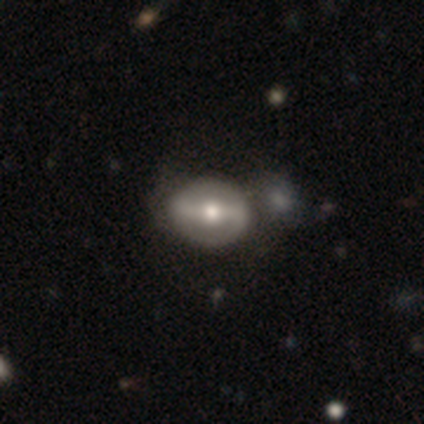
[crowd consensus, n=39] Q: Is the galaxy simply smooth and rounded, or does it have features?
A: featured or disk — 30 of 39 (77%).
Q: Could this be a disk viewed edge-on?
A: no — 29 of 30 (97%).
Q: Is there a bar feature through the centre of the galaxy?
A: strong — 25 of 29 (86%).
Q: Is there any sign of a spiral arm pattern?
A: yes — 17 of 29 (59%).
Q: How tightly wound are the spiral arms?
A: medium — 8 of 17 (47%).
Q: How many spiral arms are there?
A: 2 — 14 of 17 (82%).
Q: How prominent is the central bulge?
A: moderate — 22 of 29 (76%).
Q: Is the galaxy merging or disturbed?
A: none — 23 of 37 (62%).